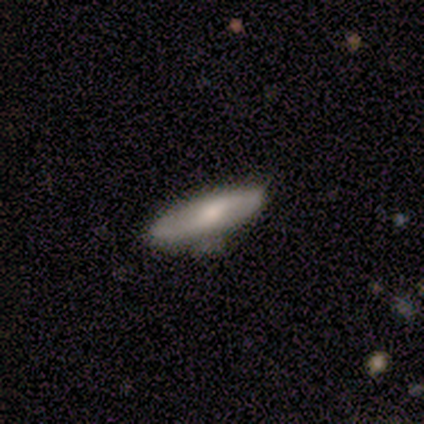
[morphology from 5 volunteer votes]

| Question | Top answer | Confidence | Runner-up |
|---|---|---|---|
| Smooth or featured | smooth | 80% | featured or disk (20%) |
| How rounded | in between | 50% | tied: cigar-shaped (50%) |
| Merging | none | 80% | minor disturbance (20%) |